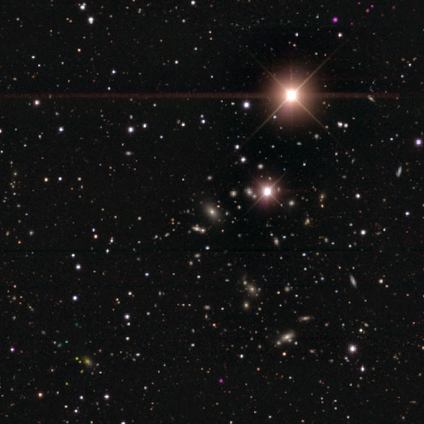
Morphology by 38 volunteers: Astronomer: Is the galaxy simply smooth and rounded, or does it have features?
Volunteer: star or artifact — 84%.